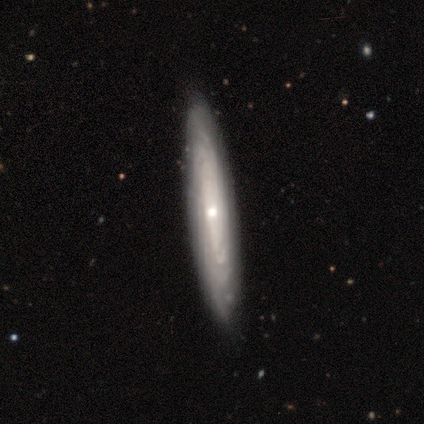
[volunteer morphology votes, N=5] This is likely a featured or disk galaxy (60%). It is likely viewed edge-on (67%). Edge-on bulge: possibly none (50%, tied with rounded). Merging: clearly none (100%).